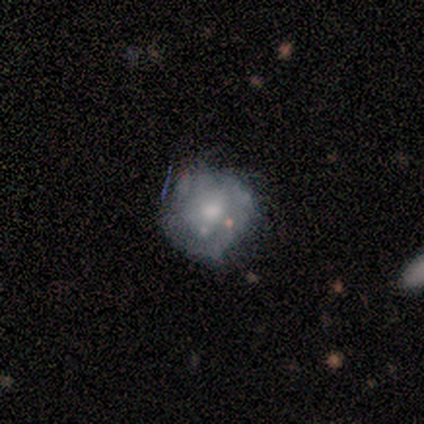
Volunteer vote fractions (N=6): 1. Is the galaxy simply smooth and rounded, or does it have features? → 67% smooth, 33% featured or disk, 0% star or artifact.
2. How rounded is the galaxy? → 100% round, 0% in between, 0% cigar-shaped.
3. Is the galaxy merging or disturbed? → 50% none (tied), 50% minor disturbance (tied), 0% major disturbance, 0% merger.